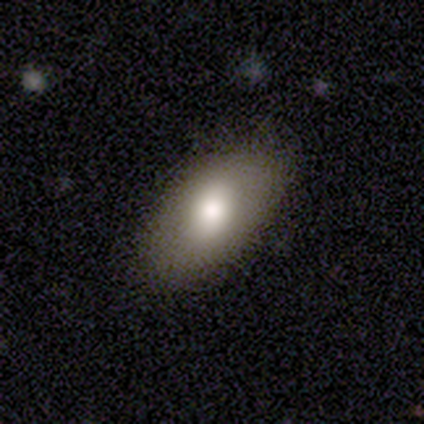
A smooth galaxy with no disk features (71%) that is in between round and cigar-shaped (96%).

Vote fractions:
- Smooth or featured? smooth: 71% / star or artifact: 16% / featured or disk: 13%
- How rounded? in between: 96% / round: 4% / cigar-shaped: 0%
- Merging? none: 81% / minor disturbance: 12% / major disturbance: 6% / merger: 0%